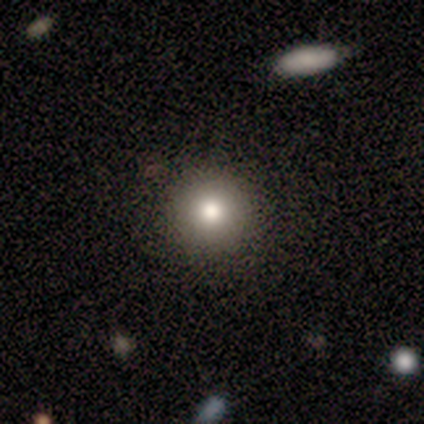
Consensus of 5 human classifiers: Morphology: type=smooth (80%); roundness=round (100%); merging=none (75%).